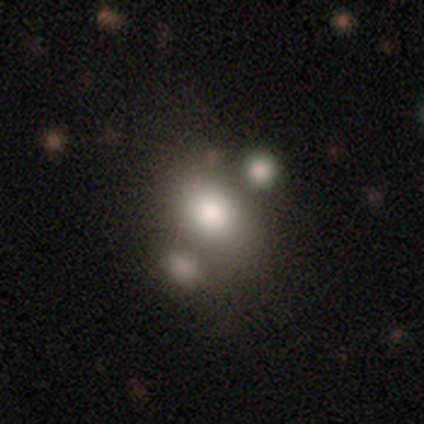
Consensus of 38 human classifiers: Q: Smooth or featured?
A: smooth (53%); runner-up: featured or disk (29%)
Q: How rounded?
A: in between (50%); runner-up: round (45%)
Q: Merging?
A: none (42%); runner-up: merger (39%)